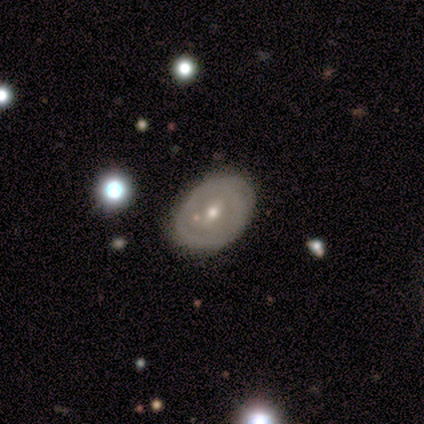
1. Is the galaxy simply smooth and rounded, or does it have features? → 75% featured or disk, 25% smooth, 0% star or artifact.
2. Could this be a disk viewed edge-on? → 100% no, 0% yes.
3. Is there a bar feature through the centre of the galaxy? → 67% weak, 33% strong, 0% no.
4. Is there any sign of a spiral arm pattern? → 67% yes, 33% no.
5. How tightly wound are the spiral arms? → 50% tight (tied), 50% medium (tied), 0% loose.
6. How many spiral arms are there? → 100% 2, 0% 1, 0% 3, 0% 4, 0% more than 4, 0% can't tell.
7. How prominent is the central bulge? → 67% small, 33% moderate, 0% dominant, 0% large, 0% none.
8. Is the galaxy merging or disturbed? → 75% none, 25% minor disturbance, 0% major disturbance, 0% merger.